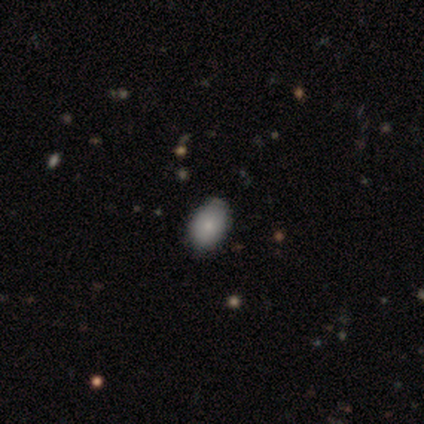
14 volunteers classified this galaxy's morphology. smooth 93%, featured or disk 7%, star or artifact 0%. Down the decision tree: how rounded — in between (100%); merging — none (64%).